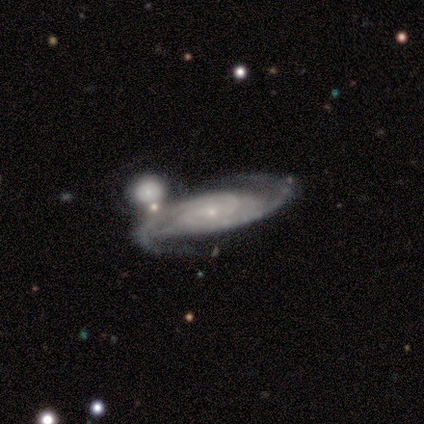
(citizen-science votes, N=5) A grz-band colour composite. It shows a featured or disk galaxy (100%) with no bar (60%), 2 (60%) tight (60%) spiral arms (100%) and a small central bulge (100%). Merging: none (40%, tied with merger).